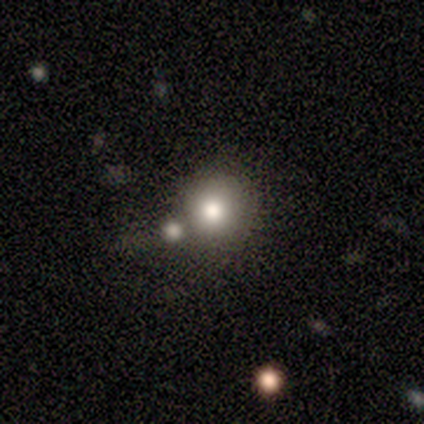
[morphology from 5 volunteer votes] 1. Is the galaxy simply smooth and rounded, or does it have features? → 100% smooth, 0% featured or disk, 0% star or artifact.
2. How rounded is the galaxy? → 80% round, 20% in between, 0% cigar-shaped.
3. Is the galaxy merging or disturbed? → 60% merger, 40% none, 0% minor disturbance, 0% major disturbance.